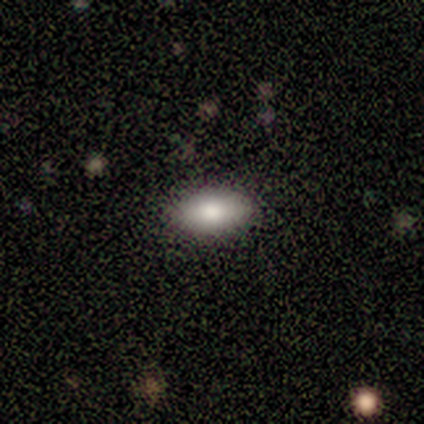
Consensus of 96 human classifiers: A smooth galaxy with no disk features (80%) that is in between round and cigar-shaped (88%).

Vote fractions:
- Smooth or featured? smooth: 80% / featured or disk: 15% / star or artifact: 5%
- How rounded? in between: 88% / cigar-shaped: 9% / round: 3%
- Merging? none: 87% / minor disturbance: 10% / major disturbance: 2% / merger: 1%